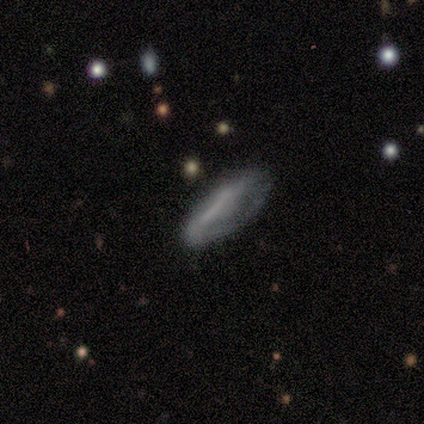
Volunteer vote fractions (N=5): smooth_or_featured: featured or disk (p=0.80) [alt: smooth p=0.20]
disk_edge_on: yes (p=0.50) [tied with: no p=0.50]
edge_on_bulge: boxy (p=1.00)
merging: none (p=0.60) [alt: minor disturbance p=0.40]